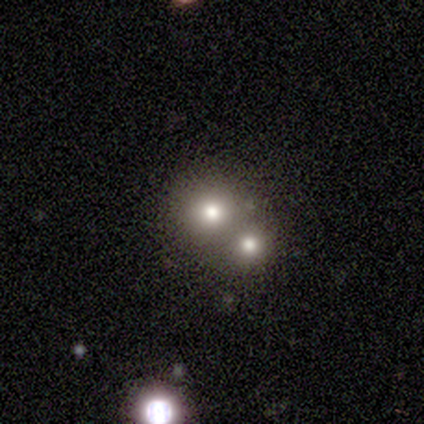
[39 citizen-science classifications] Morphology: type=smooth (56%); roundness=round (95%); merging=merger (48%).